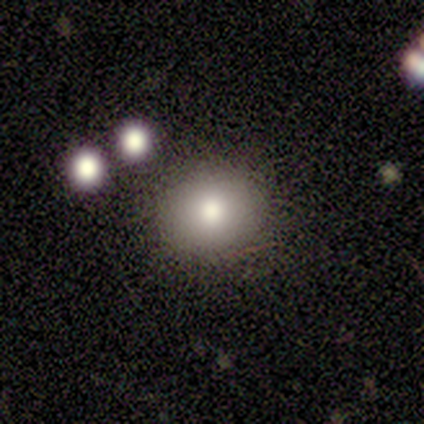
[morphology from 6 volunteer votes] A smooth galaxy with no disk features (67%) that is round (75%).

Vote fractions:
- Smooth or featured? smooth: 67% / star or artifact: 33% / featured or disk: 0%
- How rounded? round: 75% / in between: 25% / cigar-shaped: 0%
- Merging? none: 75% / minor disturbance: 25% / major disturbance: 0% / merger: 0%